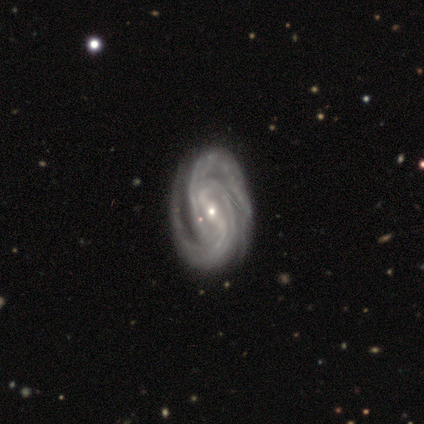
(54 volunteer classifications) A featured or disk galaxy (100%) with a strong bar (57%), 2 (55%) tight (66%) spiral arms (100%) and a small central bulge (74%). Merging: none (65%).